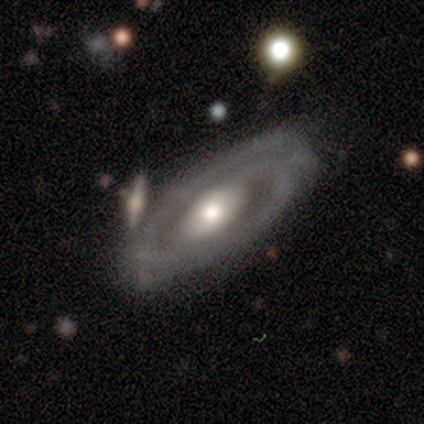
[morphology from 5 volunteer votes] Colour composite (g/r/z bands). It shows a featured or disk galaxy (100%) with no bar (80%), 1 (60%) medium (60%) spiral arms (100%) and a large central bulge (40%, tied with moderate). Merging: none (100%).